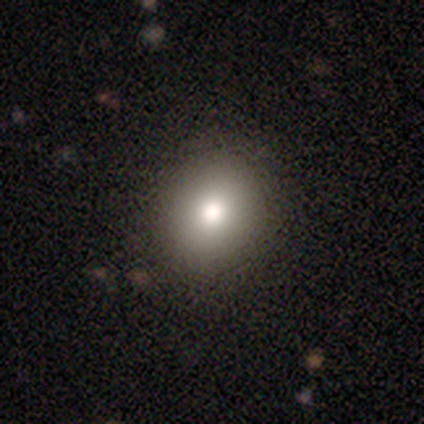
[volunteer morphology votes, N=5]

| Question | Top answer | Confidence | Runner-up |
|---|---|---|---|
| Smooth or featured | smooth | 100% | — |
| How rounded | round | 100% | — |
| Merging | none | 100% | — |